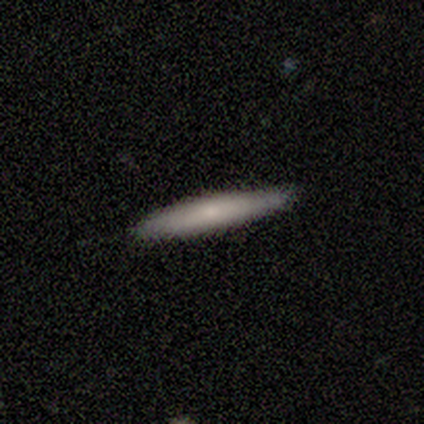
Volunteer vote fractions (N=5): This appears to be a featured or disk galaxy (60%) viewed edge-on (100%) with no central bulge (67%). Merging: none (80%).